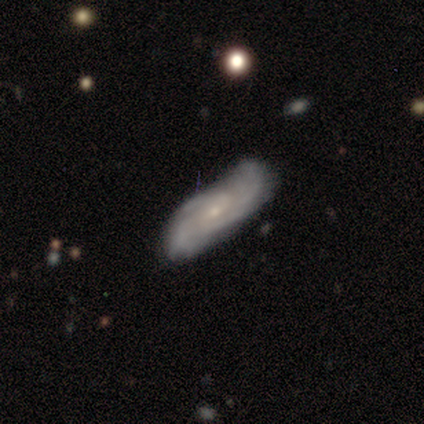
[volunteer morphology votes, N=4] Smooth or featured: featured or disk — 100%
Edge-on disk: no — 75% (yes — 25%)
Bar: weak — 67% (no — 33%)
Spiral arms: no — 67% (yes — 33%)
Bulge size: small — 100%
Merging: major disturbance — 50% (minor disturbance — 25%)